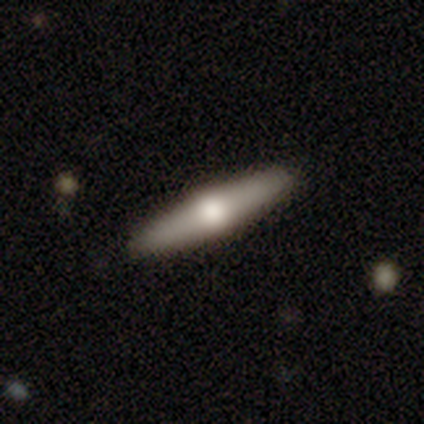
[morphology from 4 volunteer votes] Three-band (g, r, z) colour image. It shows a featured or disk galaxy (75%) viewed edge-on (67%) with a rounded central bulge (100%). Merging: none (100%).